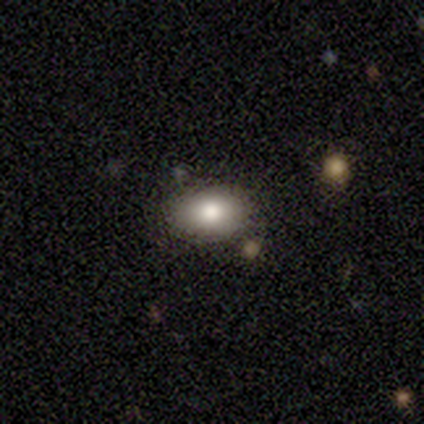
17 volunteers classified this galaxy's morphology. type=smooth (76%); roundness=in between (92%); merging=none (94%).